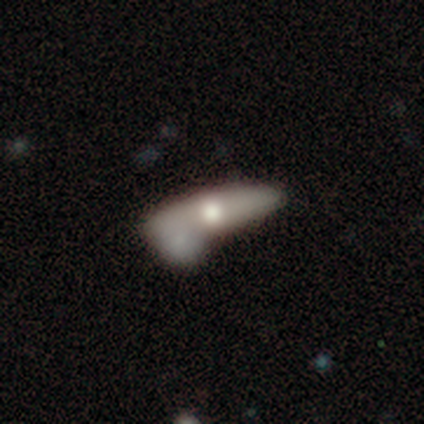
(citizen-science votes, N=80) This is possibly a featured or disk galaxy (51%). It is possibly not viewed edge-on (54%). Bar: clearly no (82%). Spiral arm pattern: clearly no (86%). Central bulge: likely moderate (73%). Merging: possibly merger (49%).